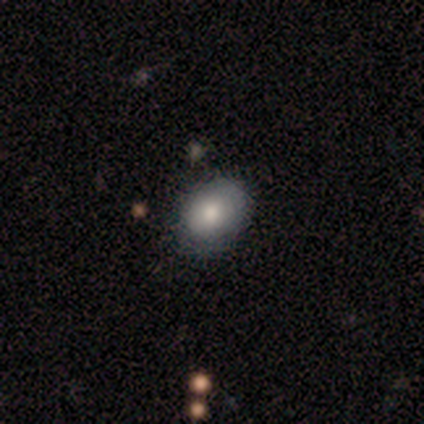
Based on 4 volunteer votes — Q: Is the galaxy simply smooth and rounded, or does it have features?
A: featured or disk — 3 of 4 (75%).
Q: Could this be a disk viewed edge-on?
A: no — 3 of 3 (100%).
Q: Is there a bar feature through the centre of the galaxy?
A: no — 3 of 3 (100%).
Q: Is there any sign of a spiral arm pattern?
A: no — 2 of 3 (67%).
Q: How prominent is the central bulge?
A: dominant — 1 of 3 (33%, tied with large and moderate).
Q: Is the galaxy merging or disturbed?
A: minor disturbance — 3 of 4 (75%).